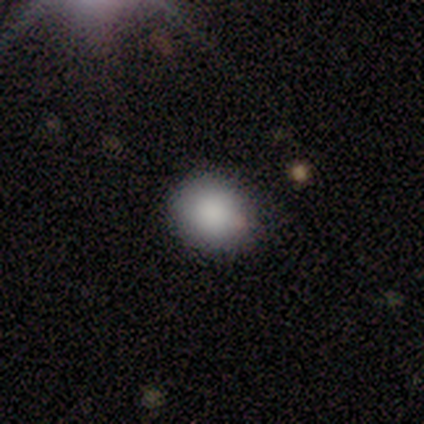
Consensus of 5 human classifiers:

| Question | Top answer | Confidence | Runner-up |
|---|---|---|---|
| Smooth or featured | smooth | 100% | — |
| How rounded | round | 80% | in between (20%) |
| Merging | none | 80% | minor disturbance (20%) |